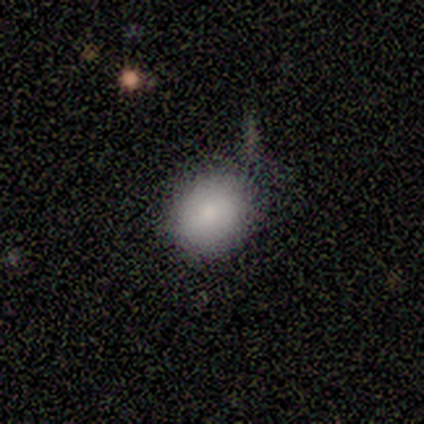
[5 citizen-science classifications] Smooth or featured: smooth — 80% (featured or disk — 20%)
How rounded: round — 75% (in between — 25%)
Merging: none — 80% (merger — 20%)